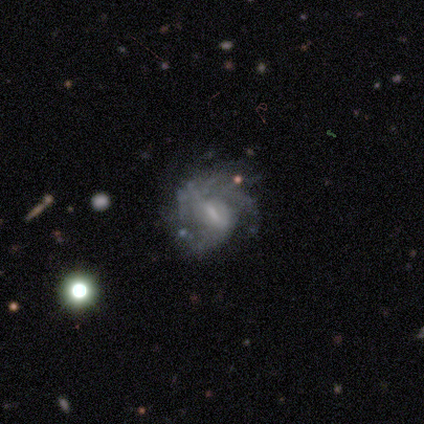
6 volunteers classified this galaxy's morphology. Overall: featured or disk (83%). Edge-on disk: no (100%). Bar: strong (40%, tied with weak). Spiral arms: yes (80%). Spiral arm count: 2 (50%, tied with 3). Spiral winding: tight (50%, tied with loose). Bulge size: small (60%; none 40%). Merging: none (33%, tied with major disturbance).